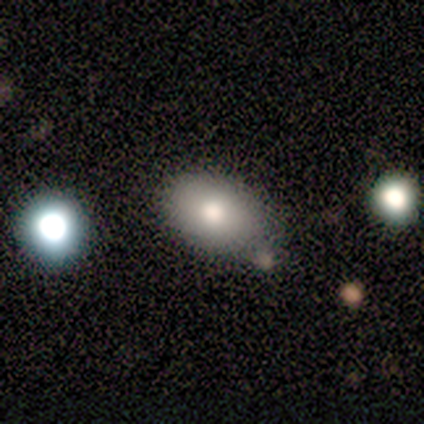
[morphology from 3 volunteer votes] smooth 100%, featured or disk 0%, star or artifact 0%. Down the decision tree: how rounded — in between (100%); merging — minor disturbance (67%).